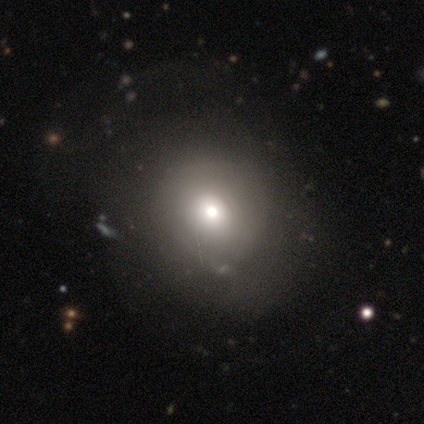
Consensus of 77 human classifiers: Overall: smooth (58%; featured or disk 23%). How rounded: round (87%). Merging: none (29%; major disturbance 16%).